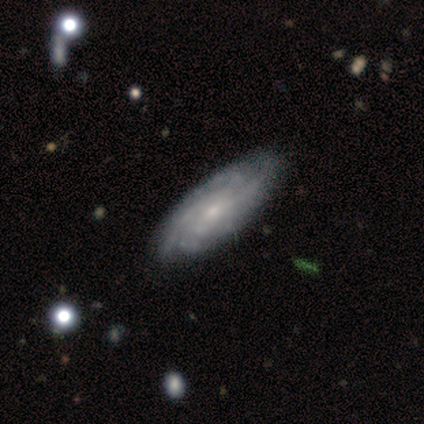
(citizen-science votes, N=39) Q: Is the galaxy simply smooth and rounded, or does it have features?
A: featured or disk — 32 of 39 (82%).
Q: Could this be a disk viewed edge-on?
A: no — 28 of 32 (88%).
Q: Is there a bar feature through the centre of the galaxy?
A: no — 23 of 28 (82%).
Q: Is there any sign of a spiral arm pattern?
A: yes — 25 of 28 (89%).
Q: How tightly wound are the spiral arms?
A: tight — 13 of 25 (52%).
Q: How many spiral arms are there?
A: can't tell — 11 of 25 (44%).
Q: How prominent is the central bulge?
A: small — 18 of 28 (64%).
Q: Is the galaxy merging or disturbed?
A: none — 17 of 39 (44%).